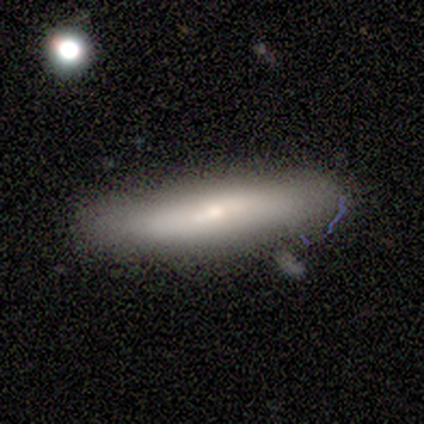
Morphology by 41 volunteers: smooth 56%, featured or disk 44%, star or artifact 0%. Down the decision tree: how rounded — cigar-shaped (61%); merging — none (61%).